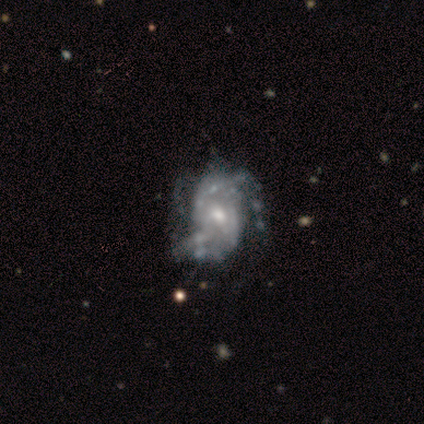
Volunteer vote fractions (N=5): Smooth or featured? 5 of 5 (100%) said featured or disk. Edge-on disk? 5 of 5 (100%) said no. Bar? 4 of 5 (80%) said weak. Spiral arms? 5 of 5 (100%) said yes. Spiral winding? 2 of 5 (40%, tied with loose) said tight. Spiral arm count? 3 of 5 (60%) said 2. Bulge size? 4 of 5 (80%) said moderate. Merging? 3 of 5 (60%) said minor disturbance.